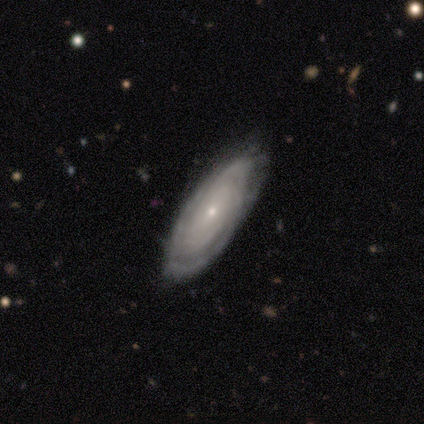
smooth_or_featured: featured or disk (p=0.86) [alt: smooth p=0.14]
disk_edge_on: no (p=0.83) [alt: yes p=0.17]
bar: no (p=0.80) [alt: weak p=0.20]
has_spiral_arms: yes (p=1.00)
spiral_winding: tight (p=0.80) [alt: medium p=0.20]
spiral_arm_count: can't tell (p=0.60) [alt: more than 4 p=0.40]
bulge_size: small (p=1.00)
merging: minor disturbance (p=0.57) [alt: none p=0.43]